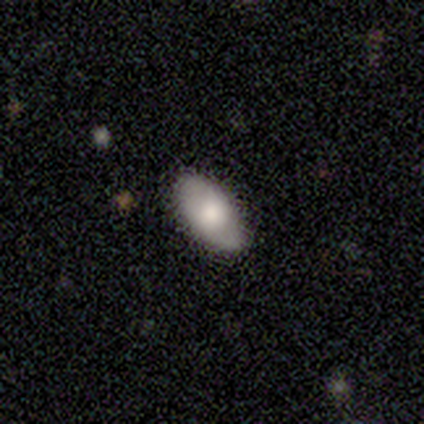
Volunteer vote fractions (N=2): Smooth or featured: smooth — 50% (tied with featured or disk — 50%)
How rounded: in between — 100%
Merging: minor disturbance — 100%